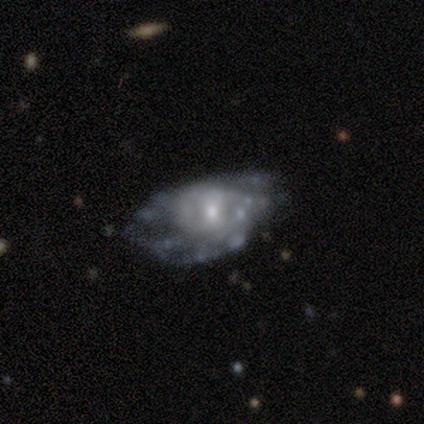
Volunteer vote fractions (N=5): smooth-or-featured: featured or disk: 100% | smooth: 0% | star or artifact: 0%
  disk-edge-on: no: 60% | yes: 40%
    bar: weak: 67% | no: 33% | strong: 0%
    has-spiral-arms: yes: 67% | no: 33%
      spiral-winding: tight: 50% (tied) | medium: 50% (tied) | loose: 0%
      spiral-arm-count: more than 4: 50% (tied) | can't tell: 50% (tied) | 1: 0% | 2: 0% | 3: 0% | 4: 0%
    bulge-size: moderate: 67% | large: 33% | dominant: 0% | small: 0% | none: 0%
  merging: none: 40% (tied) | minor disturbance: 40% (tied) | major disturbance: 20% | merger: 0%